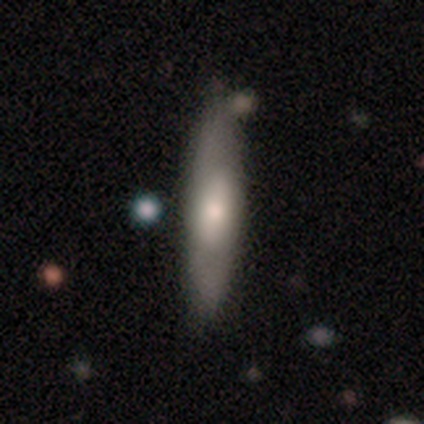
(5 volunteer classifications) smooth-or-featured: smooth: 80% | featured or disk: 20% | star or artifact: 0%
  how-rounded: in between: 50% (tied) | cigar-shaped: 50% (tied) | round: 0%
  merging: none: 60% | minor disturbance: 40% | major disturbance: 0% | merger: 0%